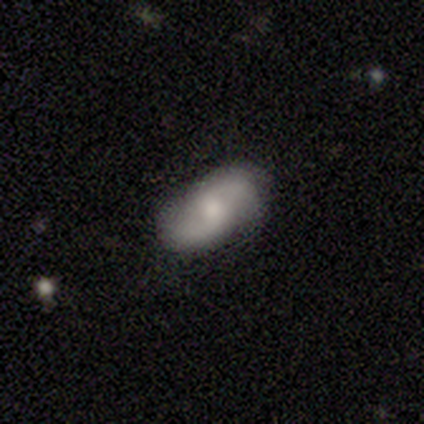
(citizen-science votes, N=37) This appears to be a featured or disk galaxy (59%) with no bar (59%), 2 (95%) loose (53%) spiral arms (86%) and a moderate central bulge (68%). Merging: none (78%).